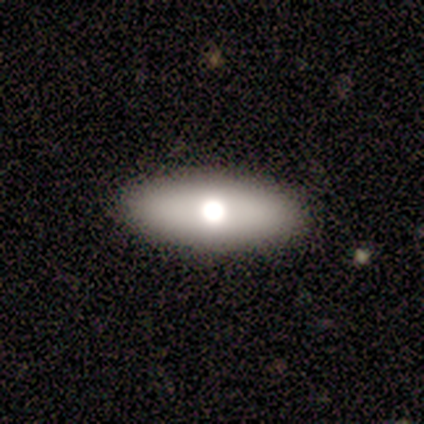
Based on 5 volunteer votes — A smooth galaxy with no disk features (80%) that is in between round and cigar-shaped (100%). Merging: none (100%).